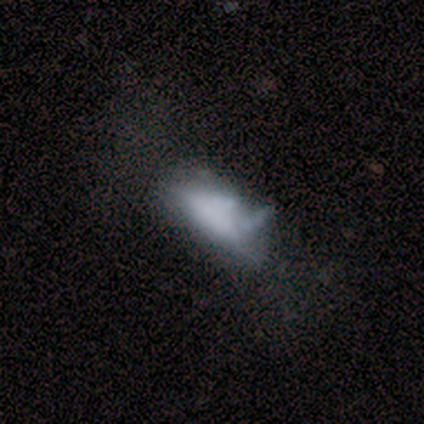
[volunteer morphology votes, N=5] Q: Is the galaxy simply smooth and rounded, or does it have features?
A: smooth — 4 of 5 (80%).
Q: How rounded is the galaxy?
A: in between — 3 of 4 (75%).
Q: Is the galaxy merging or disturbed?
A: minor disturbance — 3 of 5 (60%).